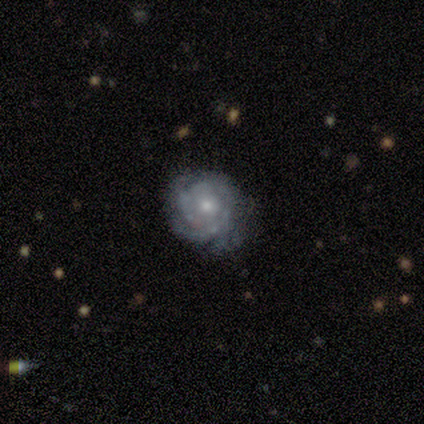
Morphology: type=featured or disk (100%); edge-on=no (100%); bar=no (75%); spiral arms=yes (92%); winding=tight (100%); arm count=can't tell (45%); bulge=moderate (58%); merging=none (83%).